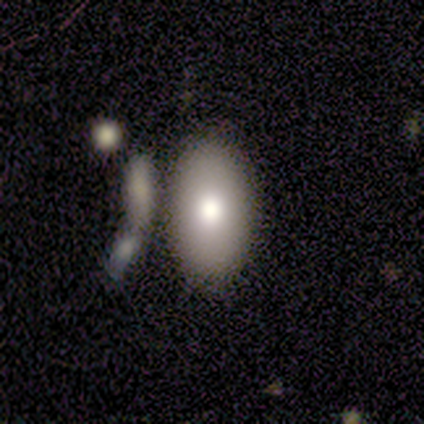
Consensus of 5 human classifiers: Morphology: type=smooth (100%); roundness=in between (100%); merging=none (40%, tied with minor disturbance).